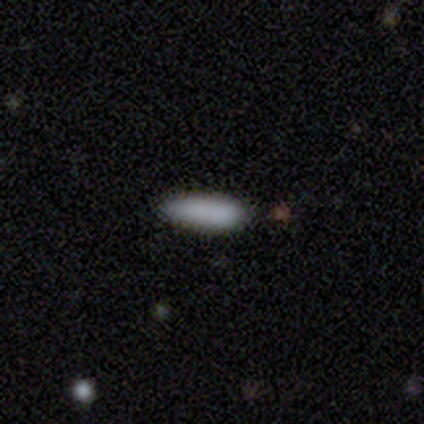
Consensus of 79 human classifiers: A smooth galaxy with no disk features (86%) that is cigar-shaped (53%). Merging: none (39%).